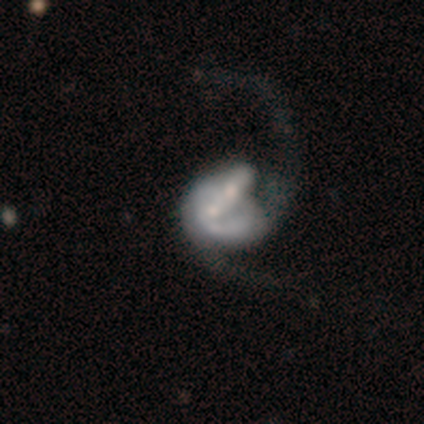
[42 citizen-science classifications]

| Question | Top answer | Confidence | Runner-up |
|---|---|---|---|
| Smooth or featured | featured or disk | 76% | smooth (21%) |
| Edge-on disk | no | 97% | yes (3%) |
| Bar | no | 77% | strong (16%) |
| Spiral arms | yes | 81% | no (19%) |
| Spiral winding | loose | 64% | medium (28%) |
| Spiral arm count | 2 | 68% | 1 (16%) |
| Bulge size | moderate | 52% | small (26%) |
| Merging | merger | 71% | major disturbance (15%) |